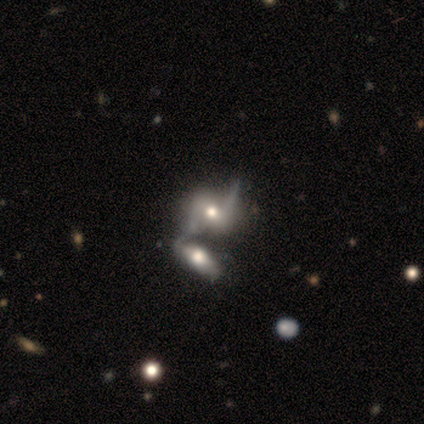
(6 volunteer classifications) featured or disk 100%, smooth 0%, star or artifact 0%. Down the decision tree: edge-on disk — no (83%); bar — no (60%); spiral arms — yes (80%); spiral arm count — 2 (75%); spiral winding — loose (75%); bulge size — moderate (80%); merging — merger (67%).